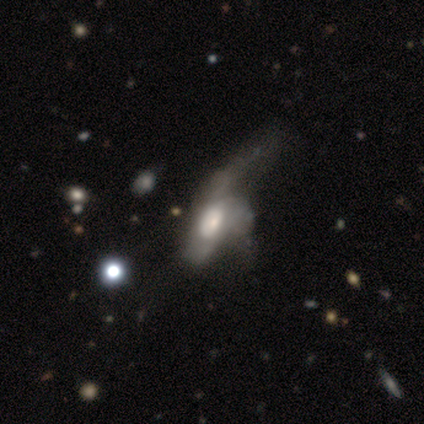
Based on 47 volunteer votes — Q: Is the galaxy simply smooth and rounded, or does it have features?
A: featured or disk — 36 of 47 (77%).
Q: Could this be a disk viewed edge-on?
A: no — 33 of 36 (92%).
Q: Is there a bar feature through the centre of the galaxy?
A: no — 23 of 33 (70%).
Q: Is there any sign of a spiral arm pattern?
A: no — 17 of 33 (52%).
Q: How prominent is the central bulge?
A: moderate — 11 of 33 (33%).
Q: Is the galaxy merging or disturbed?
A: major disturbance — 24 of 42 (57%).